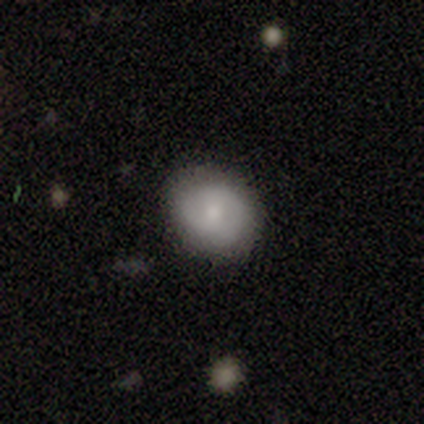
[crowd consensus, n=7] Smooth or featured?
  - smooth: 86% *
  - featured or disk: 14%
  - star or artifact: 0%
How rounded?
  - round: 67% *
  - in between: 33%
  - cigar-shaped: 0%
Merging?
  - none: 71% *
  - minor disturbance: 29%
  - major disturbance: 0%
  - merger: 0%